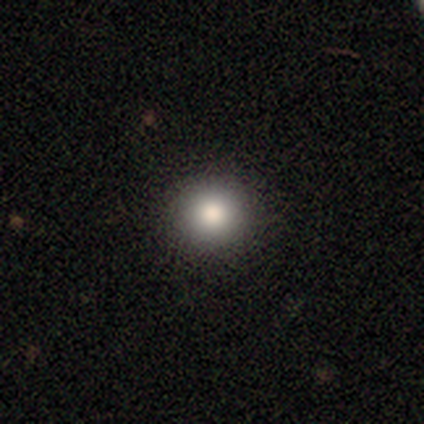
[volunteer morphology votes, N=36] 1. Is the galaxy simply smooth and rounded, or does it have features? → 81% smooth, 17% featured or disk, 3% star or artifact.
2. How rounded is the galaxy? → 93% round, 7% in between, 0% cigar-shaped.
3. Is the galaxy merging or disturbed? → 100% none, 0% minor disturbance, 0% major disturbance, 0% merger.